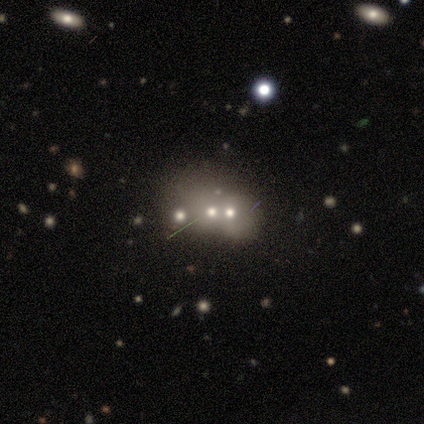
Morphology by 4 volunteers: Smooth or featured? star or artifact (75%)